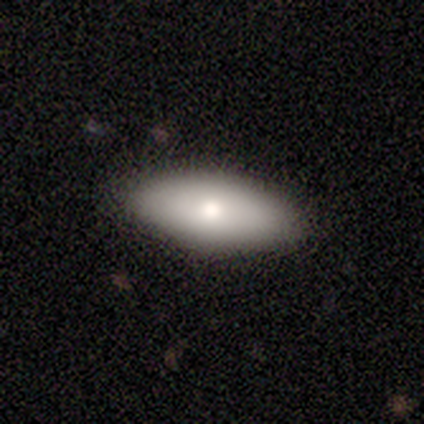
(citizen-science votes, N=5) smooth 80%, featured or disk 20%, star or artifact 0%. Down the decision tree: how rounded — in between (100%); merging — none (100%).